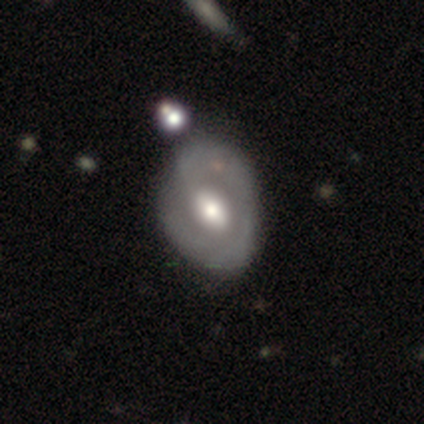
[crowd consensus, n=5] Q: Smooth or featured?
A: featured or disk (100%)
Q: Edge-on disk?
A: no (100%)
Q: Bar?
A: weak (40%); tied with: no (40%)
Q: Spiral arms?
A: yes (80%); runner-up: no (20%)
Q: Spiral winding?
A: tight (50%); runner-up: medium (25%)
Q: Spiral arm count?
A: 1 (50%); runner-up: 3 (25%)
Q: Bulge size?
A: large (40%); tied with: moderate (40%)
Q: Merging?
A: none (40%); tied with: minor disturbance (40%)